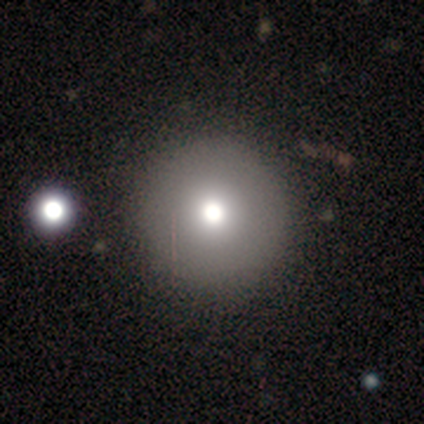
This appears to be a smooth galaxy with no disk features (75%) that is round (100%). Merging: none (100%).